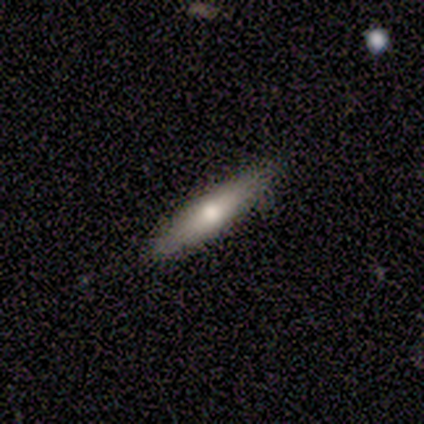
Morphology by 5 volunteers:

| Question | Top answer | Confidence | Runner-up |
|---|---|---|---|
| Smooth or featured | smooth | 80% | featured or disk (20%) |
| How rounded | cigar-shaped | 100% | — |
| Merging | none | 100% | — |